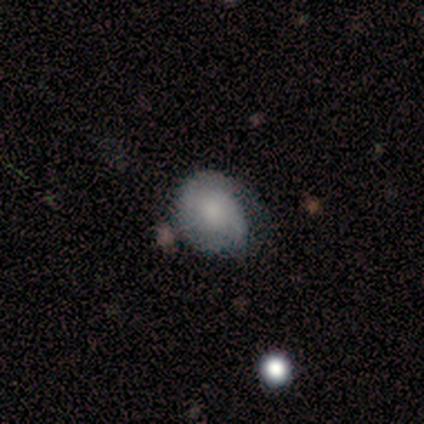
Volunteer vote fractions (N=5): Smooth or featured? 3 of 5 (60%) said featured or disk. Edge-on disk? 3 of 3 (100%) said no. Bar? 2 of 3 (67%) said weak. Spiral arms? 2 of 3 (67%) said yes. Spiral winding? 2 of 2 (100%) said tight. Spiral arm count? 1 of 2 (50%, tied with 3) said 2. Bulge size? 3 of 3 (100%) said moderate. Merging? 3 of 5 (60%) said minor disturbance.